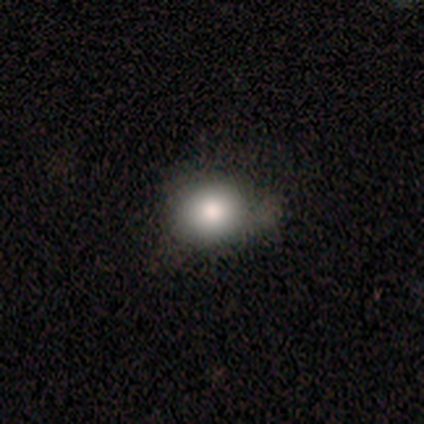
Q: Smooth or featured?
A: smooth (84%); runner-up: featured or disk (8%)
Q: How rounded?
A: round (81%); runner-up: in between (16%)
Q: Merging?
A: none (60%); runner-up: minor disturbance (29%)